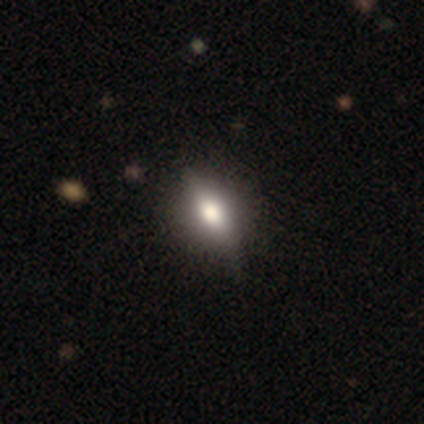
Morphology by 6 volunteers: Overall: smooth (50%, tied with featured or disk). How rounded: in between (100%). Merging: none (100%).